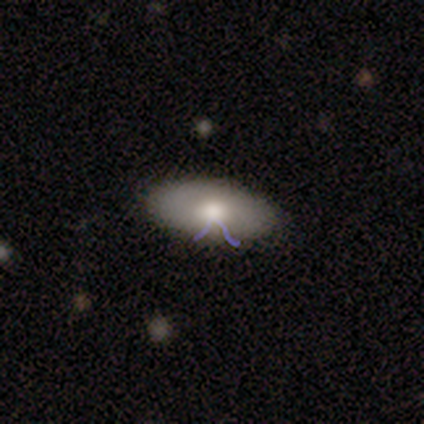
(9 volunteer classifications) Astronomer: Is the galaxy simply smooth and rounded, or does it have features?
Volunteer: smooth — 44% (runner-up: featured or disk, 33%).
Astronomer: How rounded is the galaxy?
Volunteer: in between — 100%.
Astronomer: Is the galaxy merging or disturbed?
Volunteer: none — 86%.